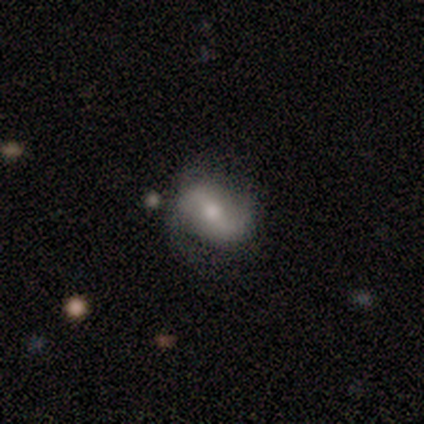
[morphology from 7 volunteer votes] Volunteers were most divided on "spiral arms" (2-way tie): yes: 50%, no: 50%. More confident: edge-on disk — no (100%); spiral winding — loose (100%); spiral arm count — 2 (100%); merging — none (71%); smooth or featured — featured or disk (57%); bar — weak (50%); bulge size — moderate (50%).